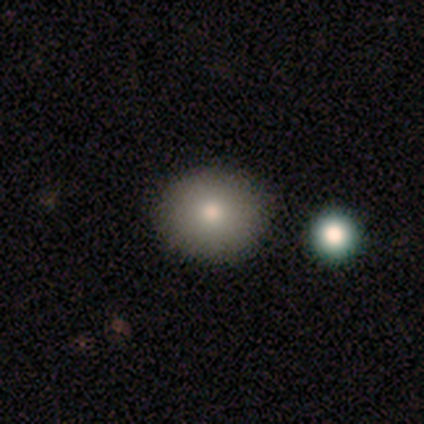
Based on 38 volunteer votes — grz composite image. It shows a smooth galaxy with no disk features (87%) that is round (91%). Merging: none (91%).